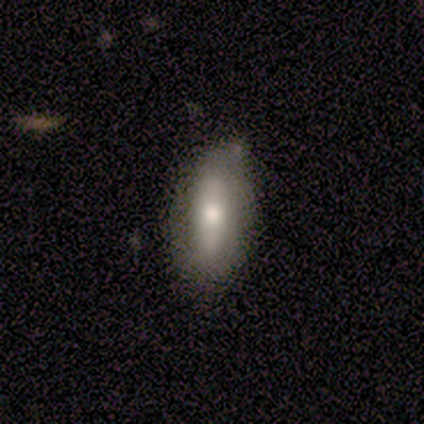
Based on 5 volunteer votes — Q: Smooth or featured?
A: smooth (60%); runner-up: featured or disk (40%)
Q: How rounded?
A: in between (67%); runner-up: cigar-shaped (33%)
Q: Merging?
A: none (80%); runner-up: minor disturbance (20%)